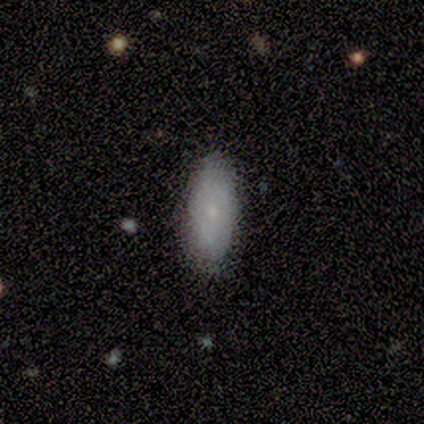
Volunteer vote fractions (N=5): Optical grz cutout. It shows a smooth galaxy with no disk features (80%) that is in between round and cigar-shaped (75%). Merging: none (80%).